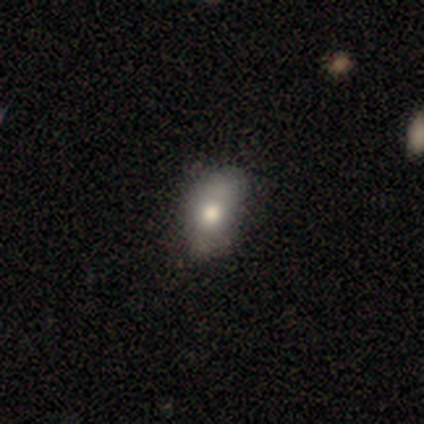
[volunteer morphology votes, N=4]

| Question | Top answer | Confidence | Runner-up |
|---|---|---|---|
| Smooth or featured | smooth | 75% | featured or disk (25%) |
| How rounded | in between | 67% | round (33%) |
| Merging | none | 75% | major disturbance (25%) |